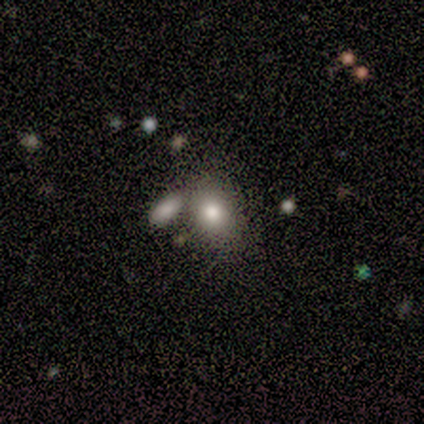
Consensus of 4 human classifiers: Smooth or featured?
  - smooth: 50% * (tied)
  - star or artifact: 50% * (tied)
  - featured or disk: 0%
How rounded?
  - round: 50% * (tied)
  - in between: 50% * (tied)
  - cigar-shaped: 0%
Merging?
  - merger: 100% *
  - none: 0%
  - minor disturbance: 0%
  - major disturbance: 0%